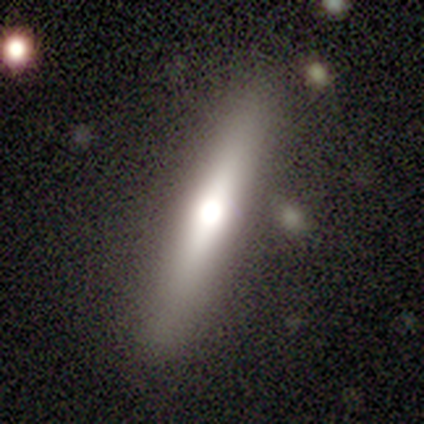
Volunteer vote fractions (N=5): Overall: featured or disk (80%). Edge-on disk: yes (75%). Edge-on bulge: rounded (100%). Merging: none (80%).